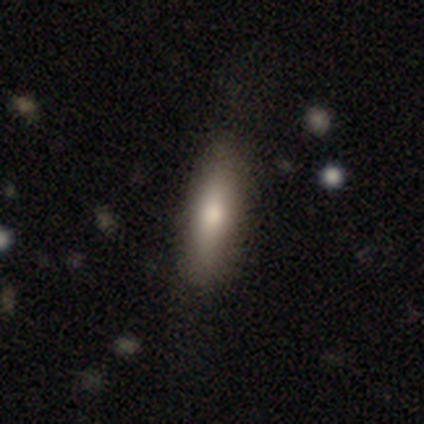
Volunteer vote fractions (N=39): This appears to be a smooth galaxy with no disk features (69%) that is cigar-shaped (59%). Merging: none (78%).